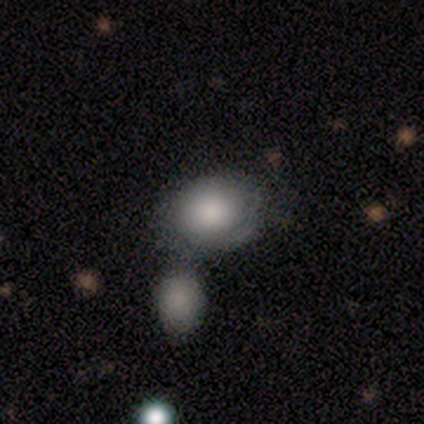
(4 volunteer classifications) A smooth galaxy with no disk features (75%) that is round (67%).

Vote fractions:
- Smooth or featured? smooth: 75% / featured or disk: 25% / star or artifact: 0%
- How rounded? round: 67% / in between: 33% / cigar-shaped: 0%
- Merging? none: 50% (tied) / merger: 50% (tied) / minor disturbance: 0% / major disturbance: 0%